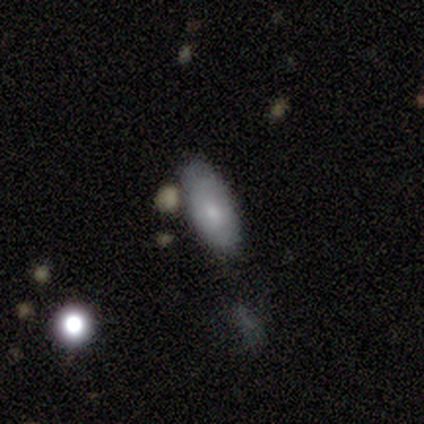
Smooth or featured? 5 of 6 (83%) said smooth. How rounded? 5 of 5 (100%) said in between. Merging? 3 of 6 (50%) said none.